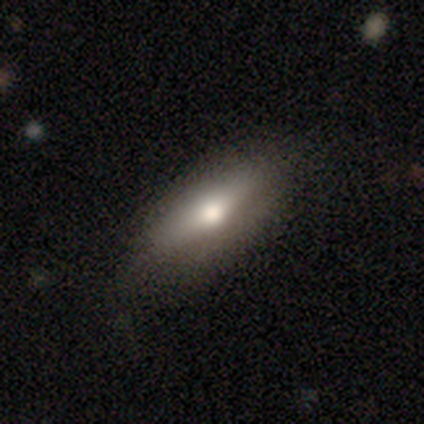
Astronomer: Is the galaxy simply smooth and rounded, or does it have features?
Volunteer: smooth — 100%.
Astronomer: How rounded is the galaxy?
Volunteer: in between — 100%.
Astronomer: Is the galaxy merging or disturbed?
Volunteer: none — 60% (runner-up: minor disturbance, 40%).